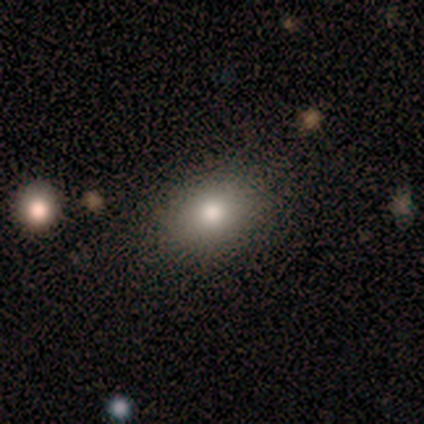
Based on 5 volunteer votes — Volunteers were most divided on "smooth or featured": smooth: 60%, star or artifact: 40%, featured or disk: 0%. More confident: how rounded — in between (100%); merging — none (67%).